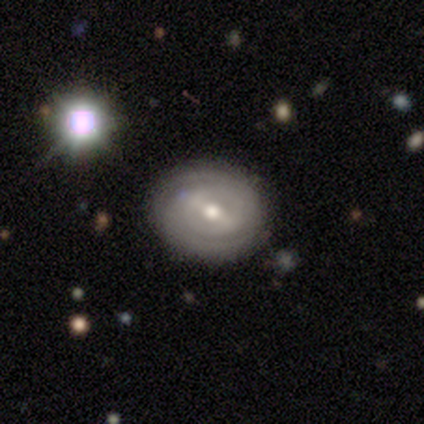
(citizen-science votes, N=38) A featured or disk galaxy (68%) with a weak bar (62%), 2 (70%) tight (61%) spiral arms (96%) and a moderate central bulge (58%). Merging: none (86%).